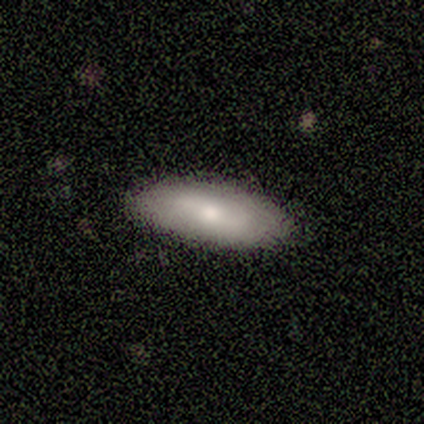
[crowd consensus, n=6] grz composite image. It shows a smooth galaxy with no disk features (83%) that is in between round and cigar-shaped (80%). Merging: none (100%).